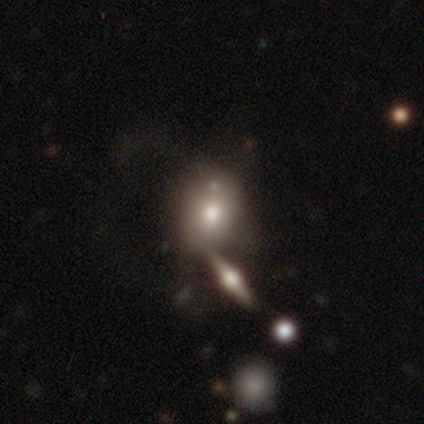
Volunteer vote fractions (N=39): Overall: smooth (64%; featured or disk 31%). How rounded: in between (56%; round 40%). Merging: none (43%; merger 30%).